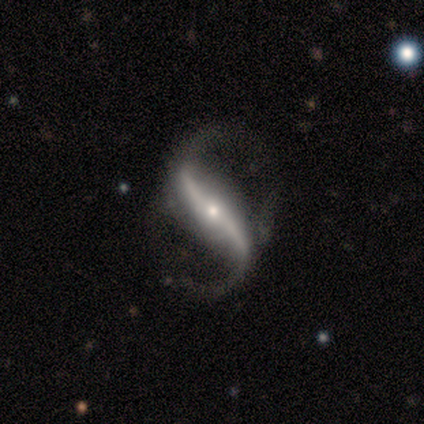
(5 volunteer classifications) This is clearly a featured or disk galaxy (80%). It is clearly not viewed edge-on (100%). Bar: possibly weak (50%). Spiral arm pattern: clearly yes (100%). Spiral arm count: clearly 2 (100%). Spiral winding: likely loose (75%). Central bulge: possibly moderate (50%, tied with small). Merging: clearly none (100%).